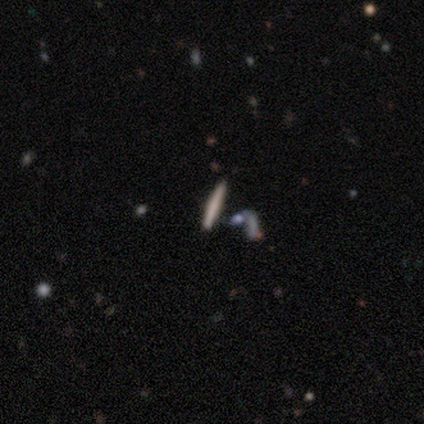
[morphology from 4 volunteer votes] A smooth galaxy with no disk features (50%) that is cigar-shaped (100%). Merging: none (67%).